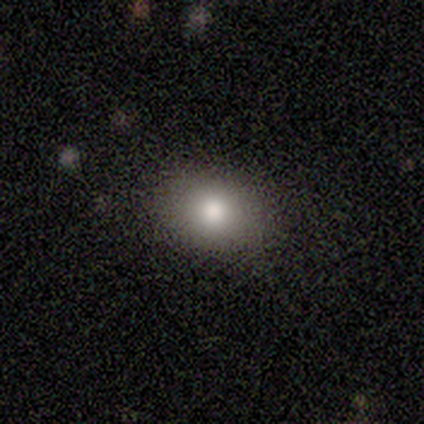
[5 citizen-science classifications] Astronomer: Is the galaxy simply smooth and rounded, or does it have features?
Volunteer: smooth — 100%.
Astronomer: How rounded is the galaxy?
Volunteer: in between — 80%.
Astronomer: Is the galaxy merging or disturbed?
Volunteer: none — 80%.